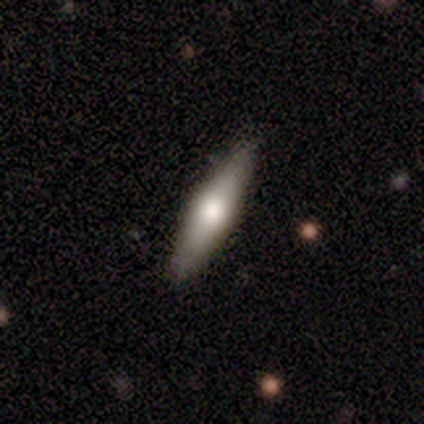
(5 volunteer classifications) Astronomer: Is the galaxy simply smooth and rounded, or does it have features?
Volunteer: featured or disk — 60% (runner-up: smooth, 40%).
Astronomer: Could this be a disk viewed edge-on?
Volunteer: yes — 100%.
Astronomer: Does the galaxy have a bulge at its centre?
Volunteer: rounded — 100%.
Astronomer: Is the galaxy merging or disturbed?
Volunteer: none — 100%.